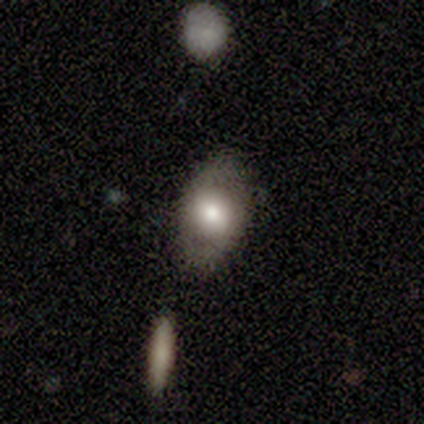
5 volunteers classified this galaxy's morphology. Volunteers were most divided on "smooth or featured": smooth: 60%, featured or disk: 20%, star or artifact: 20%. More confident: how rounded — in between (100%); merging — none (100%).